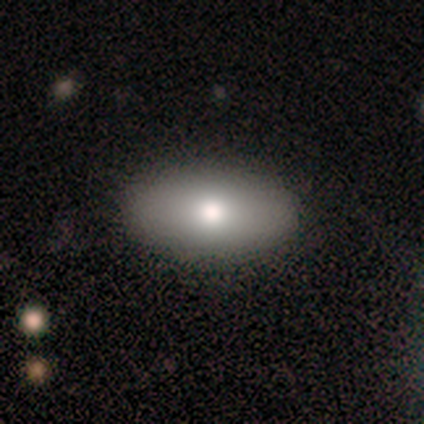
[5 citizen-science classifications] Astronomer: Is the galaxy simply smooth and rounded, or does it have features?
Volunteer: smooth — 60%.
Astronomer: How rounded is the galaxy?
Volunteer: in between — 67%.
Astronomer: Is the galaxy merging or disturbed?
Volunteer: none — 100%.